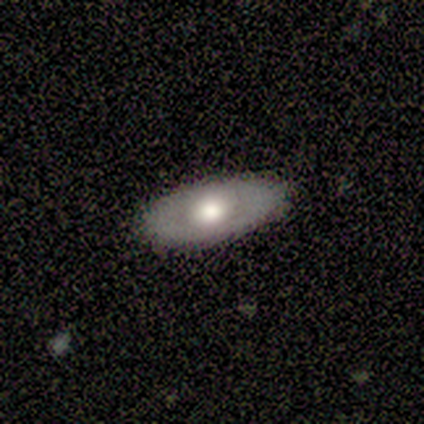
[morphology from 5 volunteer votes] A featured or disk galaxy (60%) with no bar (100%), no spiral arms (100%) and a large central bulge (50%, tied with moderate). Merging: none (100%).